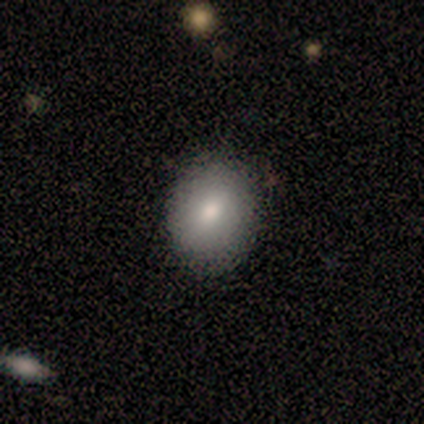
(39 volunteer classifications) Overall: smooth (79%). How rounded: in between (52%; round 48%). Merging: none (67%).